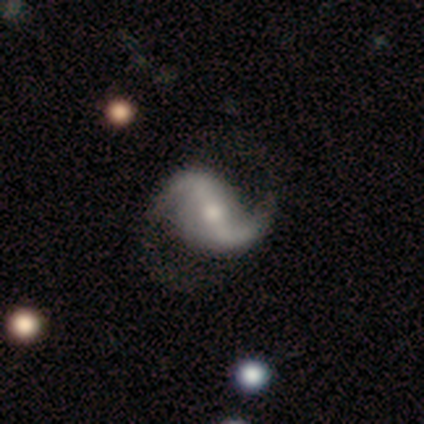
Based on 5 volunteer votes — Volunteers were most divided on "merging" (2-way tie): none: 40%, minor disturbance: 40%, major disturbance: 20%, merger: 0%. More confident: smooth or featured — featured or disk (100%); edge-on disk — no (100%); spiral arms — yes (100%); spiral winding — loose (100%); spiral arm count — 2 (80%); bar — strong (60%); bulge size — small (60%).